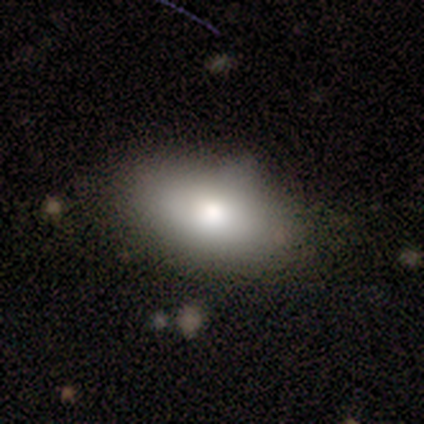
Overall: smooth (100%). How rounded: in between (100%). Merging: none (33%, tied with minor disturbance and major disturbance).